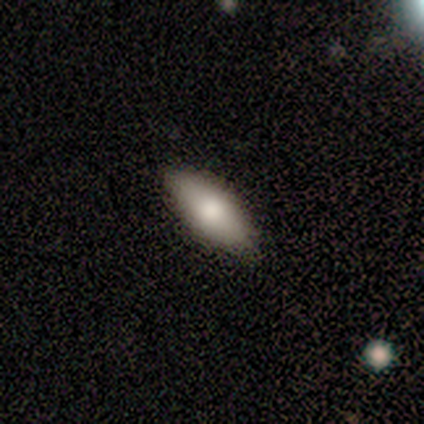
A smooth galaxy with no disk features (100%) that is in between round and cigar-shaped (80%).

Vote fractions:
- Smooth or featured? smooth: 100% / featured or disk: 0% / star or artifact: 0%
- How rounded? in between: 80% / cigar-shaped: 20% / round: 0%
- Merging? none: 80% / minor disturbance: 20% / major disturbance: 0% / merger: 0%